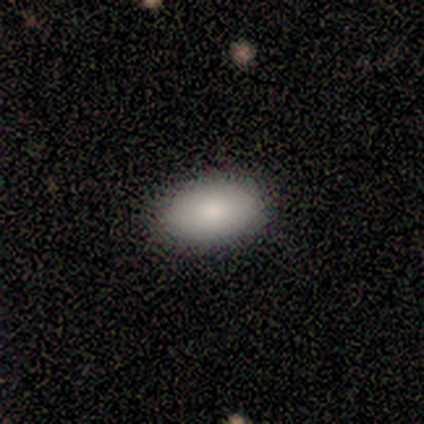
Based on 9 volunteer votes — Smooth or featured?
  - smooth: 89% *
  - featured or disk: 11%
  - star or artifact: 0%
How rounded?
  - in between: 88% *
  - round: 12%
  - cigar-shaped: 0%
Merging?
  - none: 100% *
  - minor disturbance: 0%
  - major disturbance: 0%
  - merger: 0%